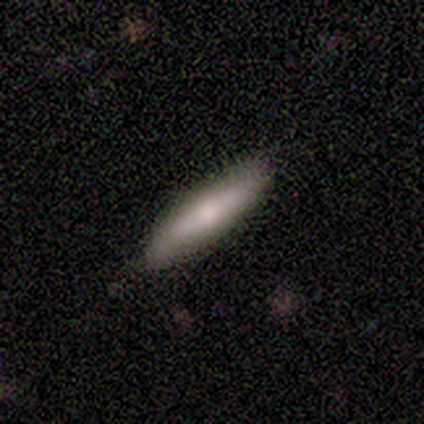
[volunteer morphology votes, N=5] A smooth galaxy with no disk features (100%) that is cigar-shaped (100%).

Vote fractions:
- Smooth or featured? smooth: 100% / featured or disk: 0% / star or artifact: 0%
- How rounded? cigar-shaped: 100% / round: 0% / in between: 0%
- Merging? none: 100% / minor disturbance: 0% / major disturbance: 0% / merger: 0%